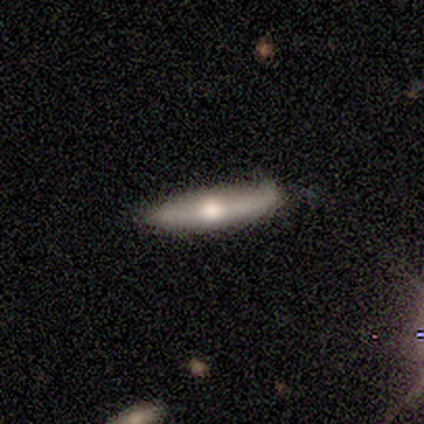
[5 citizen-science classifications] Morphology: type=smooth (60%); roundness=cigar-shaped (67%); merging=none (100%).